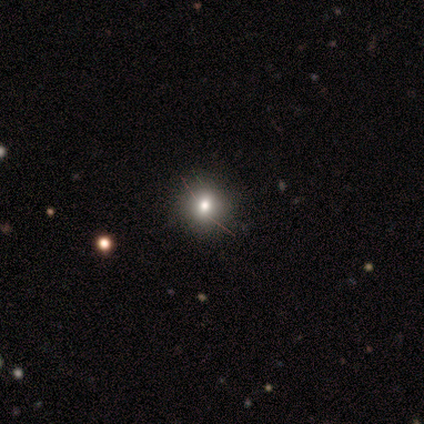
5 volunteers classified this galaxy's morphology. A smooth galaxy with no disk features (40%, tied with star or artifact) that is round (100%).

Vote fractions:
- Smooth or featured? smooth: 40% (tied) / star or artifact: 40% (tied) / featured or disk: 20%
- How rounded? round: 100% / in between: 0% / cigar-shaped: 0%
- Merging? none: 100% / minor disturbance: 0% / major disturbance: 0% / merger: 0%